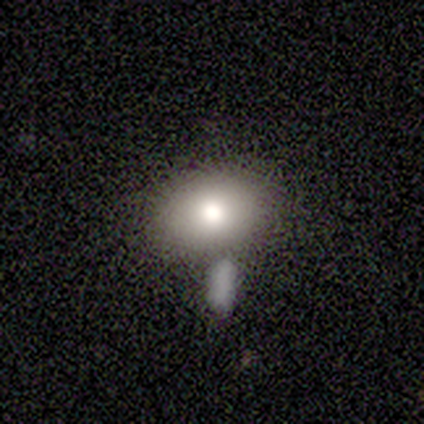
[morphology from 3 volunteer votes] Smooth or featured? 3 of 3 (100%) said smooth. How rounded? 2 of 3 (67%) said in between. Merging? 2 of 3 (67%) said minor disturbance.